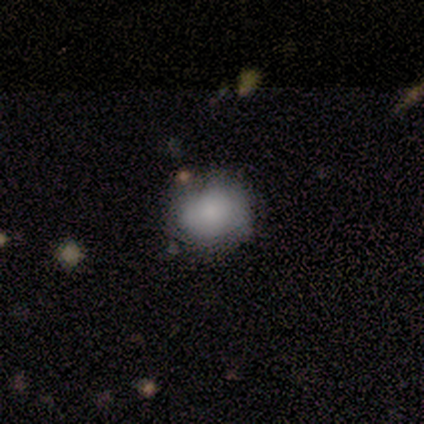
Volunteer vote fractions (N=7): This is likely a smooth galaxy (71%). How rounded: likely round (60%). Merging: likely minor disturbance (67%).